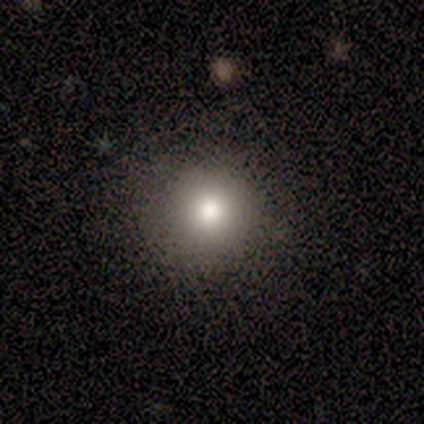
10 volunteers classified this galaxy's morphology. smooth_or_featured: smooth (p=0.90) [alt: featured or disk p=0.10]
how_rounded: round (p=1.00)
merging: none (p=0.80) [alt: minor disturbance p=0.10]